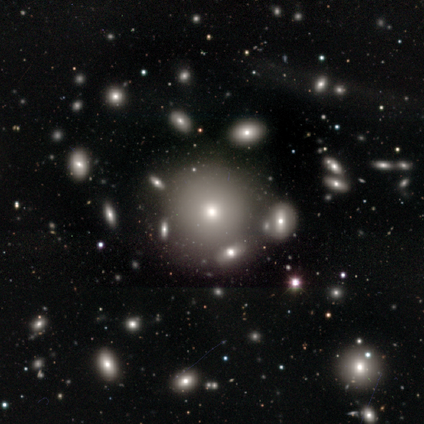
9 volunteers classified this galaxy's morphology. Smooth or featured? 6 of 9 (67%) said smooth. How rounded? 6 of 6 (100%) said round. Merging? 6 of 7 (86%) said none.